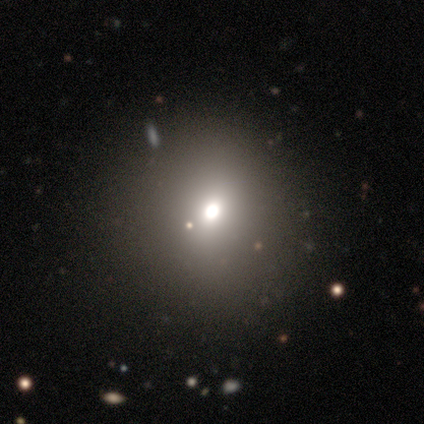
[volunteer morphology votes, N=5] smooth 80%, featured or disk 20%, star or artifact 0%. Down the decision tree: how rounded — round (100%); merging — none (100%).